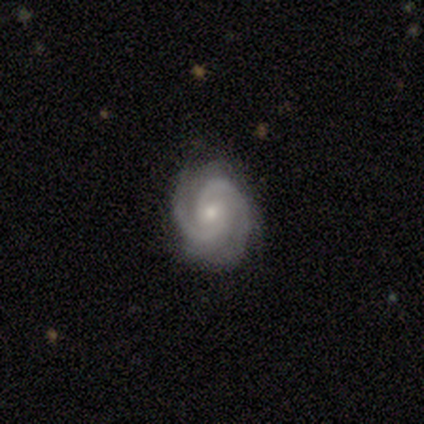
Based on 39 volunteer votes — Morphology: type=featured or disk (87%); edge-on=no (97%); bar=no (52%); spiral arms=yes (100%); winding=tight (64%); arm count=2 (70%); bulge=moderate (52%); merging=none (75%).